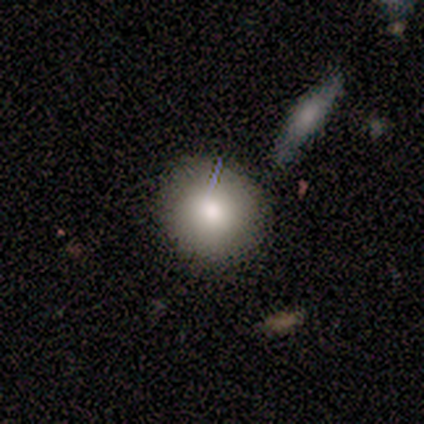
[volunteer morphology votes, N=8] Overall: smooth (50%; featured or disk 25%). How rounded: round (75%). Merging: none (67%; minor disturbance 33%).